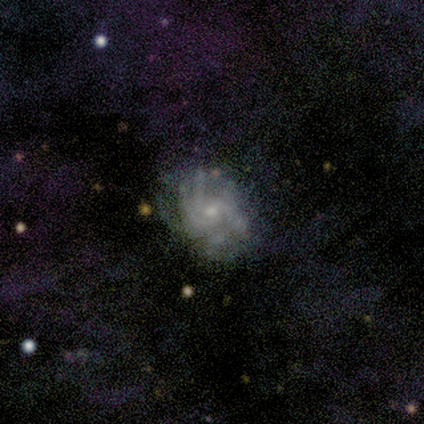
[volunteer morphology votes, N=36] This appears to be a featured or disk galaxy (89%) with no bar (66%), 4 (42%) tight (50%) spiral arms (81%) and a small central bulge (72%). Merging: none (54%).